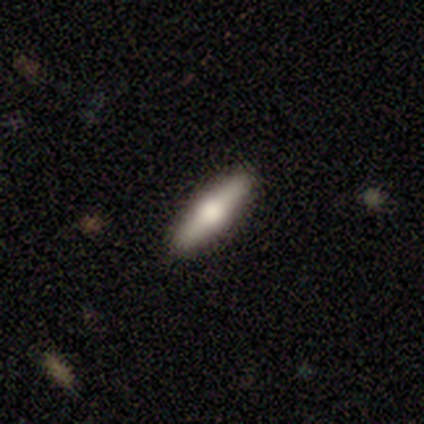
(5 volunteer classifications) A featured or disk galaxy (80%) viewed edge-on (100%) with a rounded central bulge (100%).

Vote fractions:
- Smooth or featured? featured or disk: 80% / smooth: 20% / star or artifact: 0%
- Edge-on disk? yes: 100% / no: 0%
- Edge-on bulge? rounded: 100% / boxy: 0% / none: 0%
- Merging? none: 100% / minor disturbance: 0% / major disturbance: 0% / merger: 0%